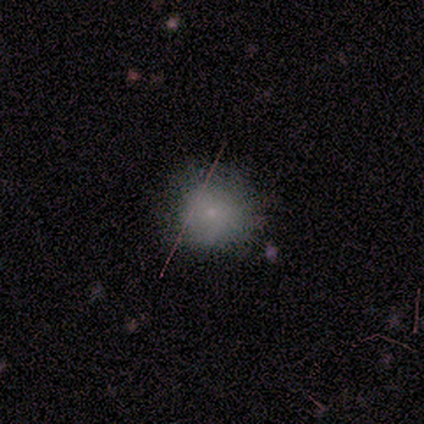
Overall: smooth (60%; star or artifact 40%). How rounded: round (100%). Merging: none (100%).